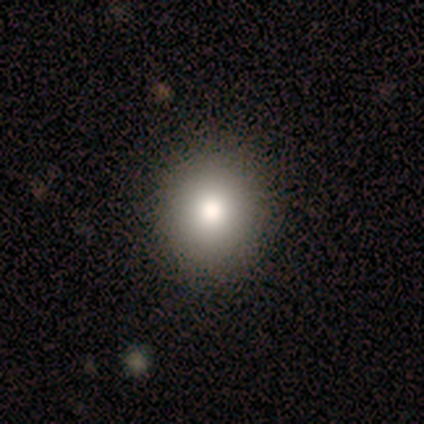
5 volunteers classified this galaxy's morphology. This is clearly a smooth galaxy (80%). How rounded: likely round (75%). Merging: clearly none (80%).